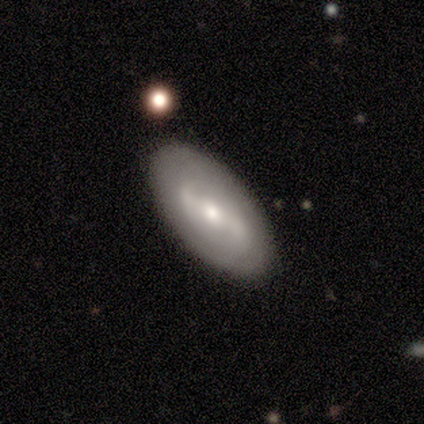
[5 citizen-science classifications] This is clearly a featured or disk galaxy (100%). It is clearly not viewed edge-on (80%). Bar: likely strong (75%). Spiral arm pattern: likely no (75%). Central bulge: possibly moderate (50%). Merging: clearly none (100%).